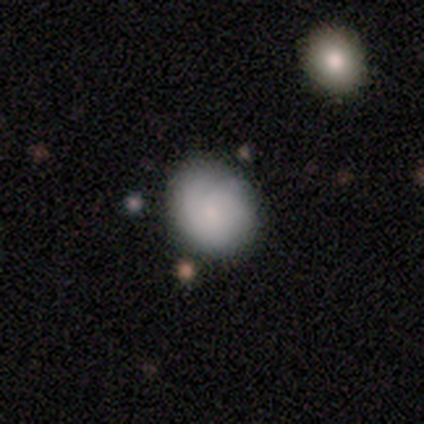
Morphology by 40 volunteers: type=smooth (82%); roundness=round (73%); merging=none (84%).